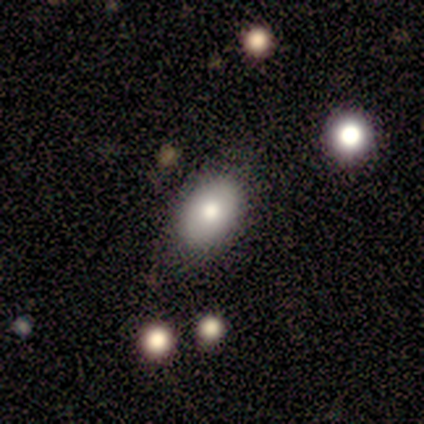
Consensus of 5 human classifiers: A smooth galaxy with no disk features (100%) that is round (60%).

Vote fractions:
- Smooth or featured? smooth: 100% / featured or disk: 0% / star or artifact: 0%
- How rounded? round: 60% / in between: 40% / cigar-shaped: 0%
- Merging? none: 100% / minor disturbance: 0% / major disturbance: 0% / merger: 0%